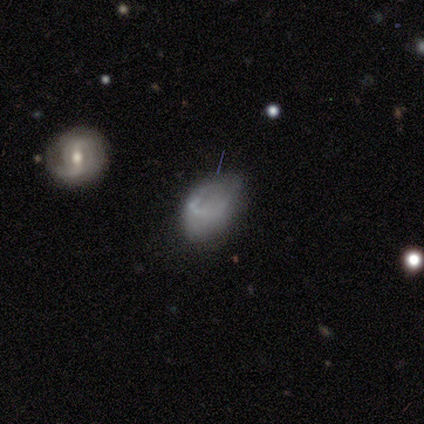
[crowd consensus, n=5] smooth-or-featured: smooth: 60% | featured or disk: 20% | star or artifact: 20%
  how-rounded: in between: 100% | round: 0% | cigar-shaped: 0%
  merging: none: 50% | minor disturbance: 25% | major disturbance: 25% | merger: 0%